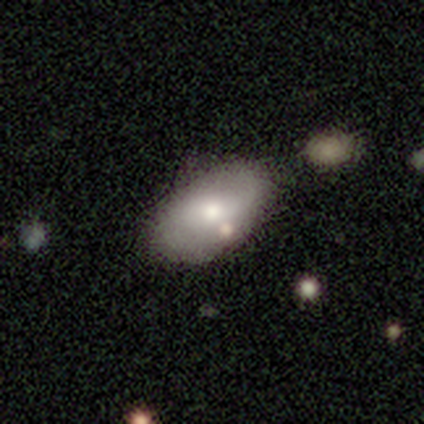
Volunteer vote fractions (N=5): Q: Smooth or featured?
A: smooth (60%); runner-up: featured or disk (40%)
Q: How rounded?
A: in between (67%); runner-up: round (33%)
Q: Merging?
A: none (80%); runner-up: minor disturbance (20%)